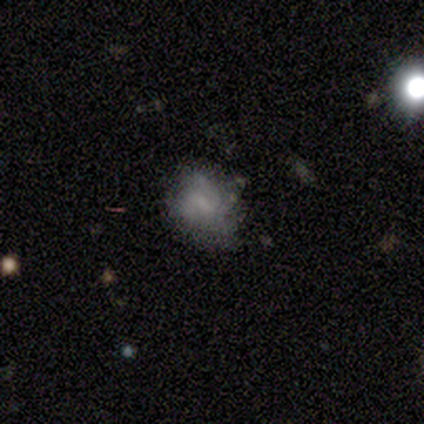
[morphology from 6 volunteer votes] type=smooth (67%); roundness=in between (75%); merging=minor disturbance (60%).